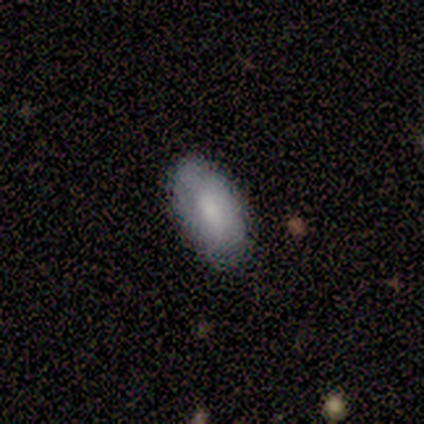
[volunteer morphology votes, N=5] Smooth or featured?
  - smooth: 100% *
  - featured or disk: 0%
  - star or artifact: 0%
How rounded?
  - in between: 80% *
  - round: 20%
  - cigar-shaped: 0%
Merging?
  - none: 100% *
  - minor disturbance: 0%
  - major disturbance: 0%
  - merger: 0%